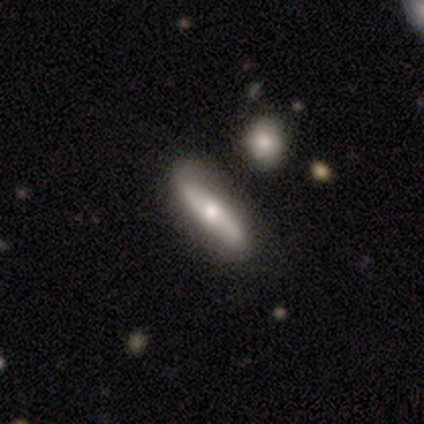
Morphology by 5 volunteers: A featured or disk galaxy (60%) with a weak bar (50%, tied with no), 2 (50%, tied with can't tell) medium (50%, tied with loose) spiral arms (100%) and a large central bulge (50%, tied with small). Merging: none (60%).